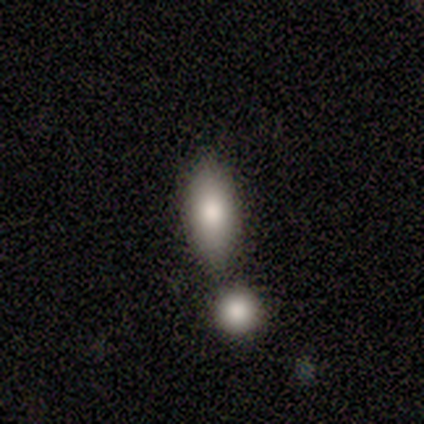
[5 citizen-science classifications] Q: Smooth or featured?
A: smooth (60%); runner-up: featured or disk (40%)
Q: How rounded?
A: in between (67%); runner-up: cigar-shaped (33%)
Q: Merging?
A: none (100%)